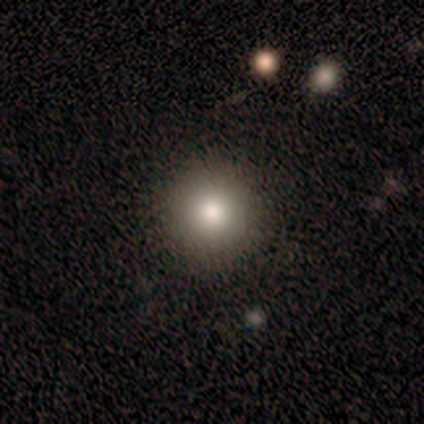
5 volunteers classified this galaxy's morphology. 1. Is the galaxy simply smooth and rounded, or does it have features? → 80% smooth, 20% featured or disk, 0% star or artifact.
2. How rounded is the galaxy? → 100% round, 0% in between, 0% cigar-shaped.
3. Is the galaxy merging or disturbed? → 100% none, 0% minor disturbance, 0% major disturbance, 0% merger.